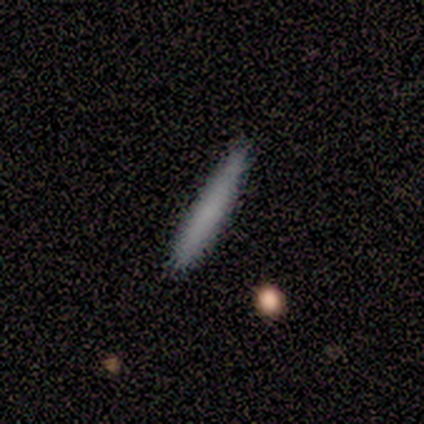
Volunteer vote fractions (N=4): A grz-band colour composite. It shows a smooth galaxy with no disk features (75%) that is cigar-shaped (100%). Merging: none (100%).